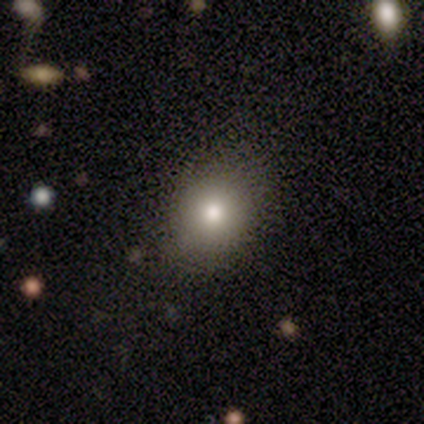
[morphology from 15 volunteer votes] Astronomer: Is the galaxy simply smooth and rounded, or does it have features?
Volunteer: smooth — 73%.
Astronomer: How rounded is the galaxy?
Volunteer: round — 91%.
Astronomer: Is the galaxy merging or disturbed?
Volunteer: none — 92%.